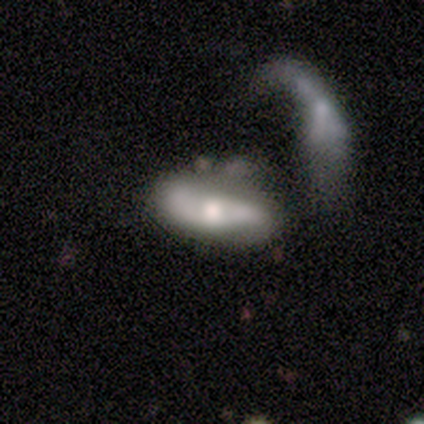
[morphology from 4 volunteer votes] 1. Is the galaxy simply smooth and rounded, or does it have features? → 50% smooth (tied), 50% featured or disk (tied), 0% star or artifact.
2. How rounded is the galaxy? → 100% in between, 0% round, 0% cigar-shaped.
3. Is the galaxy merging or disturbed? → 75% none, 25% major disturbance, 0% minor disturbance, 0% merger.